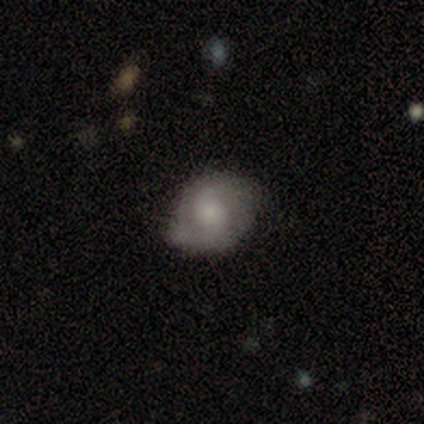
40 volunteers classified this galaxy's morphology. smooth-or-featured: featured or disk: 52% | smooth: 32% | star or artifact: 15%
  disk-edge-on: no: 100% | yes: 0%
    bar: no: 71% | weak: 29% | strong: 0%
    has-spiral-arms: yes: 95% | no: 5%
      spiral-winding: tight: 55% | loose: 25% | medium: 20%
      spiral-arm-count: 2: 75% | can't tell: 25% | 1: 0% | 3: 0% | 4: 0% | more than 4: 0%
    bulge-size: large: 38% | small: 33% | moderate: 19% | none: 10% | dominant: 0%
  merging: none: 76% | minor disturbance: 24% | major disturbance: 0% | merger: 0%